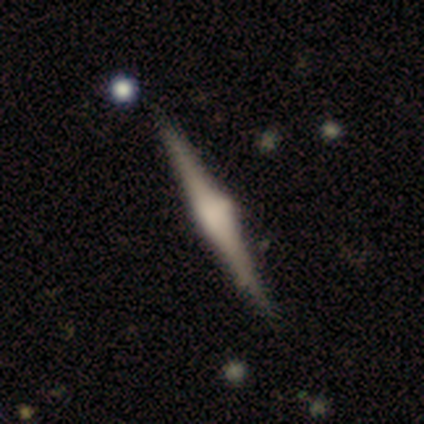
A featured or disk galaxy (84%) viewed edge-on (95%) with a rounded central bulge (88%).

Vote fractions:
- Smooth or featured? featured or disk: 84% / smooth: 8% / star or artifact: 8%
- Edge-on disk? yes: 95% / no: 5%
- Edge-on bulge? rounded: 88% / boxy: 10% / none: 2%
- Merging? none: 89% / minor disturbance: 6% / major disturbance: 4% / merger: 0%